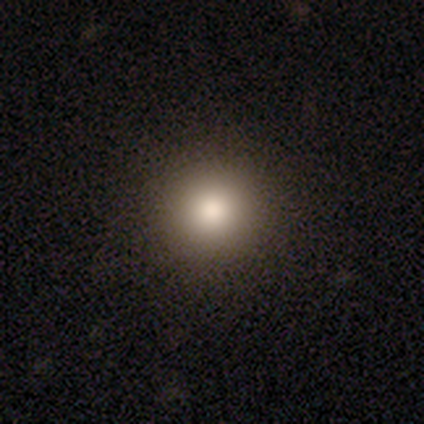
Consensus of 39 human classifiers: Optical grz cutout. It shows a smooth galaxy with no disk features (74%) that is round (93%). Merging: none (84%).